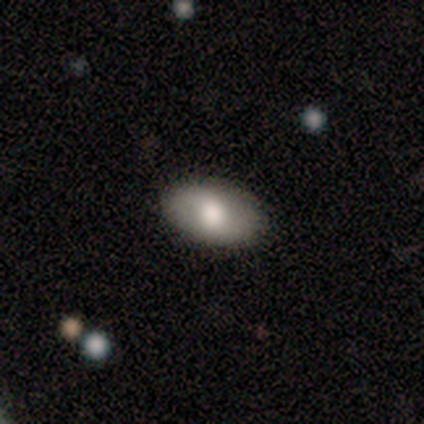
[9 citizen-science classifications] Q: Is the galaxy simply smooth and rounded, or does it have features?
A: smooth — 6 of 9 (67%).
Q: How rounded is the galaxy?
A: in between — 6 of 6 (100%).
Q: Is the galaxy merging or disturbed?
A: none — 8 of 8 (100%).